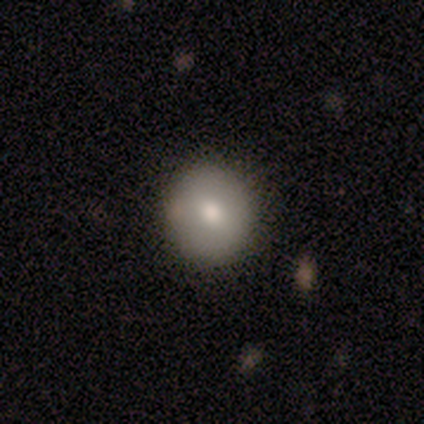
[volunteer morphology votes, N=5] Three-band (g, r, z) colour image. It shows a smooth galaxy with no disk features (80%) that is round (100%). Merging: none (100%).